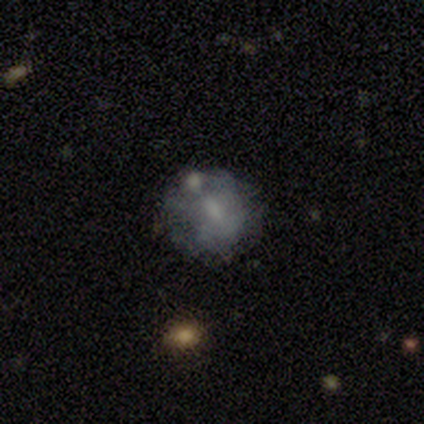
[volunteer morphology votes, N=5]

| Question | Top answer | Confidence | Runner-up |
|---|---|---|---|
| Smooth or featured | smooth | 80% | featured or disk (20%) |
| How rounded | round | 100% | — |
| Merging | none | 60% | merger (40%) |